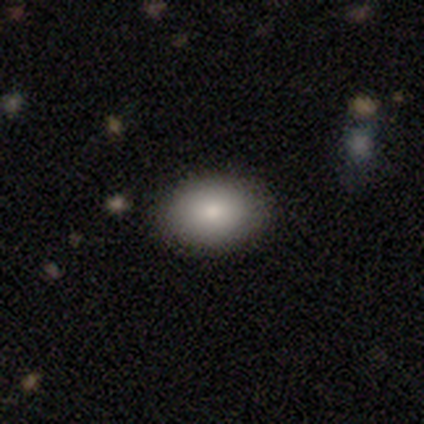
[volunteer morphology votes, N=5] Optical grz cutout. It shows a smooth galaxy with no disk features (80%) that is in between round and cigar-shaped (100%). Merging: none (80%).